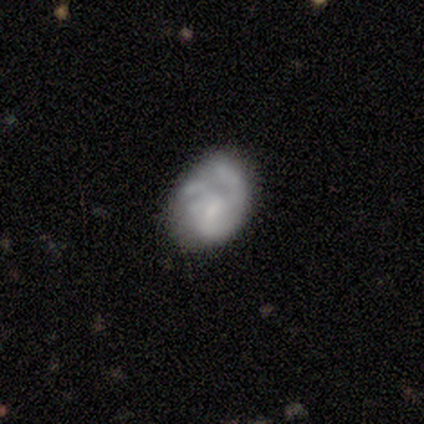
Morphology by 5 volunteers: smooth-or-featured: featured or disk: 60% | smooth: 20% | star or artifact: 20%
  disk-edge-on: no: 100% | yes: 0%
    bar: no: 67% | weak: 33% | strong: 0%
    has-spiral-arms: yes: 67% | no: 33%
      spiral-winding: medium: 50% (tied) | loose: 50% (tied) | tight: 0%
      spiral-arm-count: 1: 50% (tied) | 3: 50% (tied) | 2: 0% | 4: 0% | more than 4: 0% | can't tell: 0%
    bulge-size: small: 67% | moderate: 33% | dominant: 0% | large: 0% | none: 0%
  merging: none: 50% (tied) | minor disturbance: 50% (tied) | major disturbance: 0% | merger: 0%